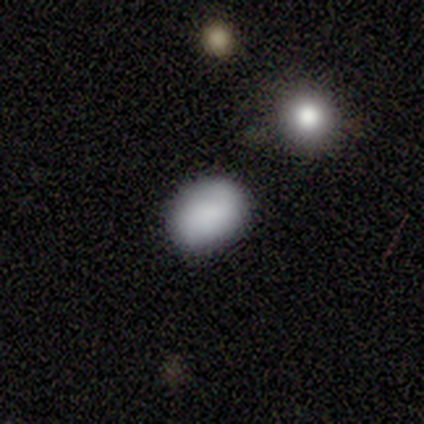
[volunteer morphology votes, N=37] Smooth or featured? smooth (73%)
How rounded? in between (78%)
Merging? none (91%)